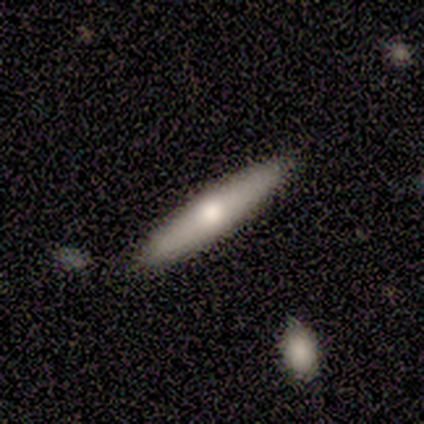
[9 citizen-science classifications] Smooth or featured?
  - smooth: 44% * (tied)
  - featured or disk: 44% * (tied)
  - star or artifact: 11%
How rounded?
  - cigar-shaped: 100% *
  - round: 0%
  - in between: 0%
Merging?
  - none: 100% *
  - minor disturbance: 0%
  - major disturbance: 0%
  - merger: 0%